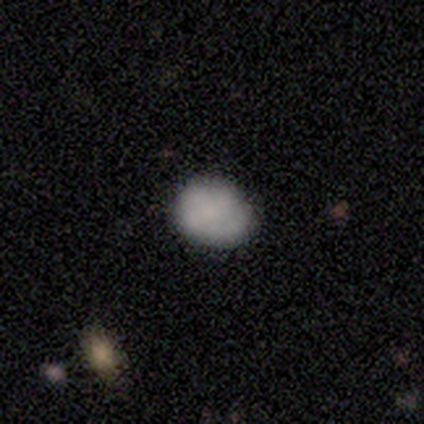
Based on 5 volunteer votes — Volunteers were most divided on "how rounded": round: 75%, in between: 25%, cigar-shaped: 0%. More confident: merging — none (100%); smooth or featured — smooth (80%).